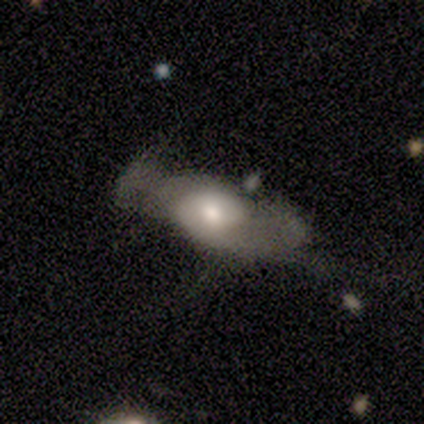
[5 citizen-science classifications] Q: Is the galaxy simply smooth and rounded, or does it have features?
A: featured or disk — 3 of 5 (60%).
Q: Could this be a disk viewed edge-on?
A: yes — 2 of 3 (67%).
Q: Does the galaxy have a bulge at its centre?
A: boxy — 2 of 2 (100%).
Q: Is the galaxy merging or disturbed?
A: major disturbance — 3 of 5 (60%).